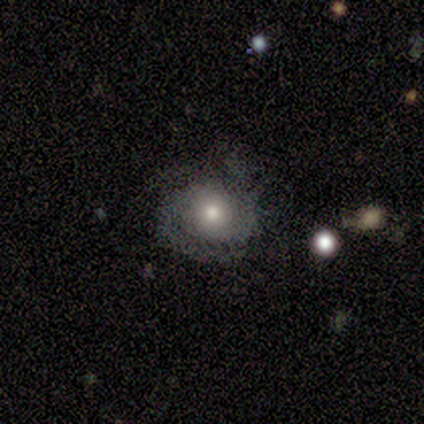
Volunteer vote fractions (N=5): Morphology: type=featured or disk (80%); edge-on=no (100%); bar=no (100%); spiral arms=yes (75%); winding=tight (67%); arm count=2 (100%); bulge=moderate (75%); merging=none (80%).